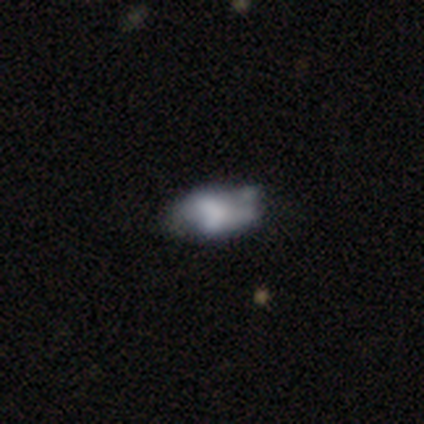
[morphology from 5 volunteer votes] A smooth galaxy with no disk features (80%) that is in between round and cigar-shaped (100%). Merging: major disturbance (50%).